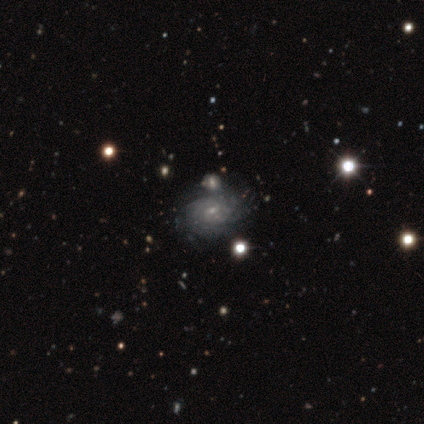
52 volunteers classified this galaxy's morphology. Smooth or featured?
  - featured or disk: 79% *
  - smooth: 21%
  - star or artifact: 0%
Edge-on disk?
  - no: 98% *
  - yes: 2%
Bar?
  - no: 57% *
  - weak: 40%
  - strong: 2%
Spiral arms?
  - yes: 90% *
  - no: 10%
Spiral winding?
  - tight: 69% *
  - medium: 19%
  - loose: 11%
Spiral arm count?
  - can't tell: 61% *
  - more than 4: 14%
  - 4: 11%
  - 2: 6%
  - 3: 6%
  - 1: 3%
Bulge size?
  - small: 78% *
  - moderate: 20%
  - none: 2%
  - dominant: 0%
  - large: 0%
Merging?
  - none: 60% *
  - merger: 19%
  - minor disturbance: 13%
  - major disturbance: 8%